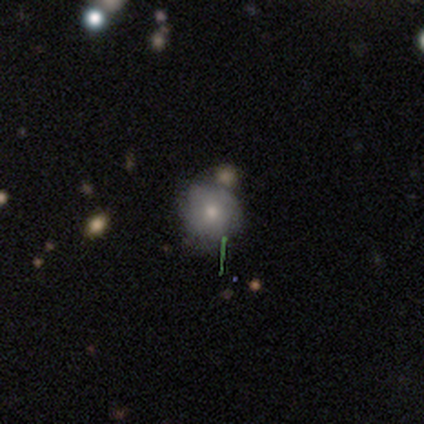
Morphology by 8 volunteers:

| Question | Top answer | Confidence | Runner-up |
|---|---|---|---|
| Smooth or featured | featured or disk | 50% | smooth (25%) |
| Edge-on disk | no | 75% | yes (25%) |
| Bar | no | 100% | — |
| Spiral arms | no | 67% | yes (33%) |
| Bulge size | moderate | 67% | small (33%) |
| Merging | none | 67% | minor disturbance (17%) |